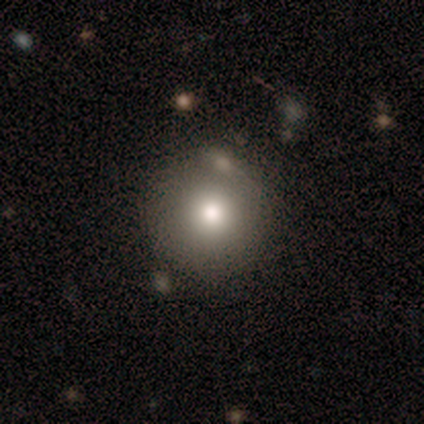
Smooth or featured? smooth (79%)
How rounded? round (90%)
Merging? none (76%)